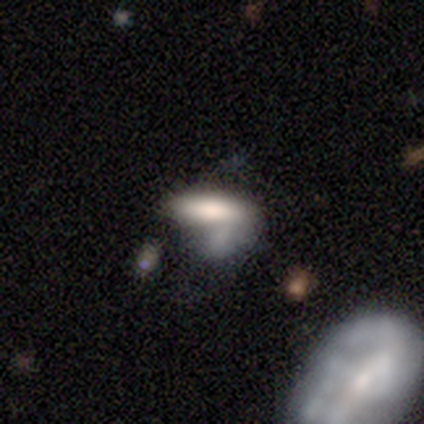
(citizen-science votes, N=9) A smooth galaxy with no disk features (78%) that is in between round and cigar-shaped (86%).

Vote fractions:
- Smooth or featured? smooth: 78% / featured or disk: 11% / star or artifact: 11%
- How rounded? in between: 86% / cigar-shaped: 14% / round: 0%
- Merging? none: 38% / major disturbance: 25% / merger: 25% / minor disturbance: 12%